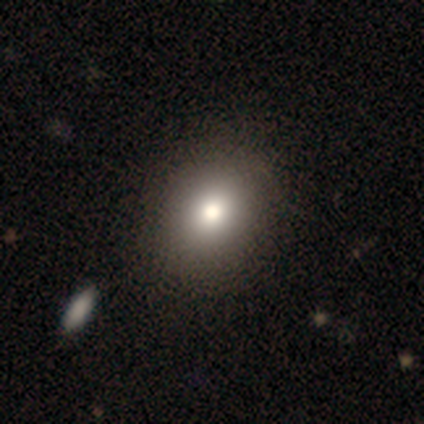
This is likely a smooth galaxy (75%). How rounded: clearly round (83%). Merging: clearly none (100%).